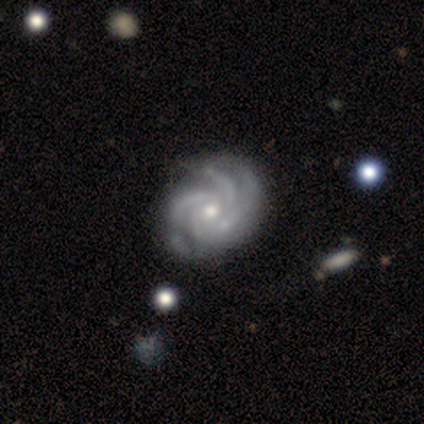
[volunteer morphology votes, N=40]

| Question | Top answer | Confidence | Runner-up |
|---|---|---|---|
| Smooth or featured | featured or disk | 98% | star or artifact (2%) |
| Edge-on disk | no | 100% | — |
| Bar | no | 74% | weak (23%) |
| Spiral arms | yes | 97% | no (3%) |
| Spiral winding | tight | 66% | medium (29%) |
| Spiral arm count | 3 | 55% | 4 (32%) |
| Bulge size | moderate | 49% | small (44%) |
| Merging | none | 59% | minor disturbance (8%) |